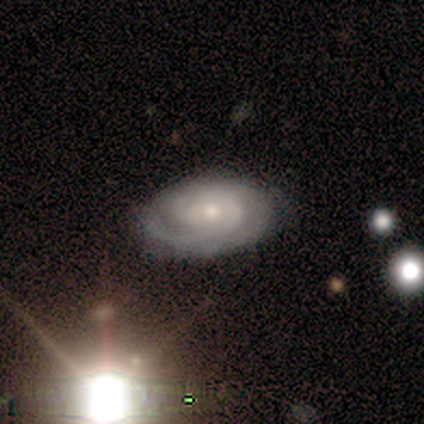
Overall: featured or disk (100%). Edge-on disk: no (100%). Bar: no (88%). Spiral arms: yes (100%). Spiral arm count: can't tell (38%; 2 25%). Spiral winding: tight (75%). Bulge size: moderate (50%, tied with small). Merging: none (88%).